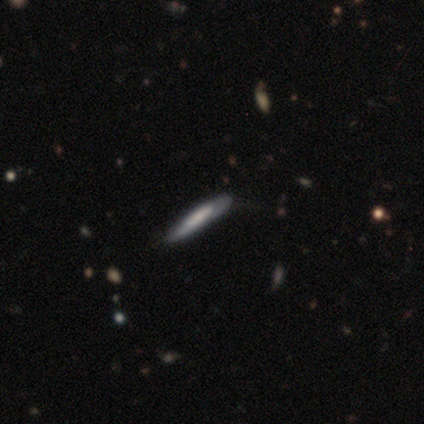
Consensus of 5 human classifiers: smooth_or_featured: smooth (p=0.80) [alt: featured or disk p=0.20]
how_rounded: cigar-shaped (p=1.00)
merging: none (p=0.80) [alt: minor disturbance p=0.20]